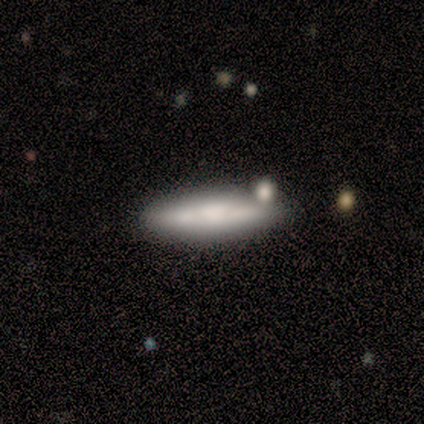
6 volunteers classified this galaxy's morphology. Volunteers were most divided on "smooth or featured": smooth: 67%, featured or disk: 17%, star or artifact: 17%. More confident: how rounded — cigar-shaped (100%); merging — none (100%).